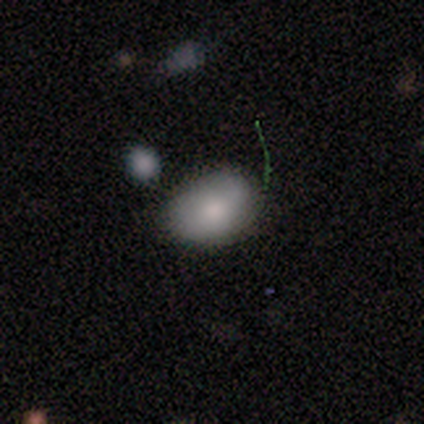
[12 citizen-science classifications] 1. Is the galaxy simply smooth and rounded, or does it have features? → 75% smooth, 17% featured or disk, 8% star or artifact.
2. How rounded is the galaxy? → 78% in between, 22% round, 0% cigar-shaped.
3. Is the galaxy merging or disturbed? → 64% none, 27% minor disturbance, 9% merger, 0% major disturbance.